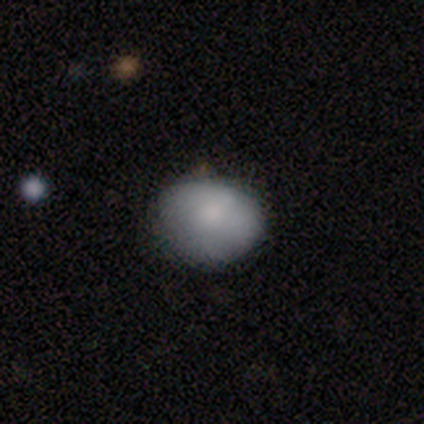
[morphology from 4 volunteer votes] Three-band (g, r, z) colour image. It shows a smooth galaxy with no disk features (75%) that is in between round and cigar-shaped (100%). Merging: none (50%, tied with minor disturbance).